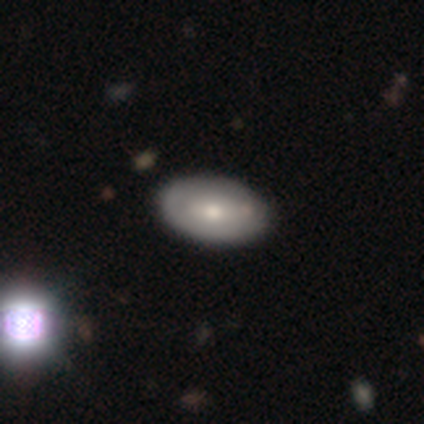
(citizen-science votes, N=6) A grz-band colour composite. It shows a featured or disk galaxy (67%) with no bar (100%), no spiral arms (100%) and a moderate central bulge (75%). Merging: none (83%).